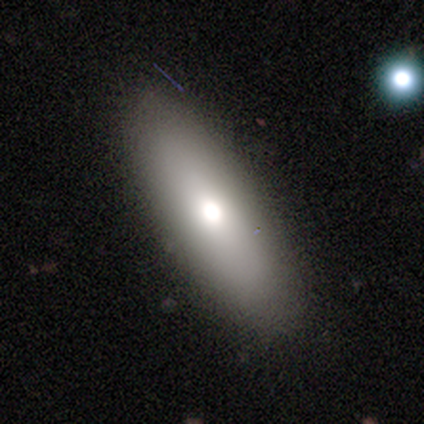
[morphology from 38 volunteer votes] type=smooth (68%); roundness=in between (69%); merging=none (83%).